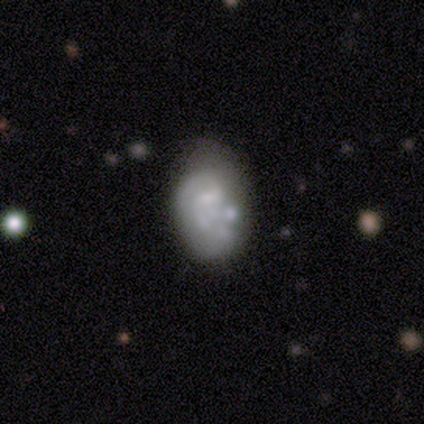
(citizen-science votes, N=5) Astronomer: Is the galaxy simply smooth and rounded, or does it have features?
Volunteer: featured or disk — 80%.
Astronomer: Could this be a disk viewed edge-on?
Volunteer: no — 100%.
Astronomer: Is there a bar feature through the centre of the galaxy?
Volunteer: weak — 50%, tied with no at 50%.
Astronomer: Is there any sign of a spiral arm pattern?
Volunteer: yes — 50%, tied with no at 50%.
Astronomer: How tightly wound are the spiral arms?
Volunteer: tight — 50%, tied with medium at 50%.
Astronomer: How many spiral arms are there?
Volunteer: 2 — 100%.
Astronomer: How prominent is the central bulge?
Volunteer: small — 50%.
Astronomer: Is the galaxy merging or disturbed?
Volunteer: minor disturbance — 40%, tied with merger at 40%.